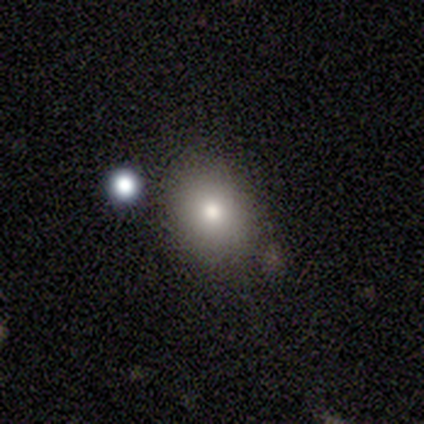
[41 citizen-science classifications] smooth 73%, featured or disk 20%, star or artifact 7%. Down the decision tree: how rounded — round (63%); merging — none (76%).